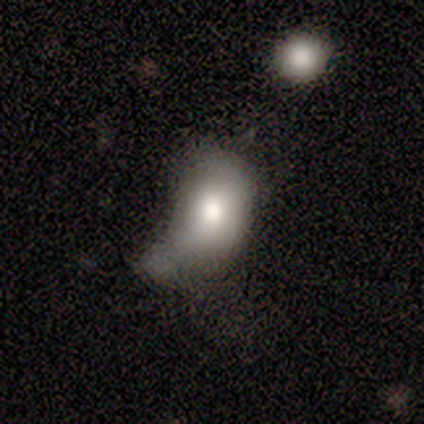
smooth-or-featured: smooth: 86% | featured or disk: 14% | star or artifact: 0%
  how-rounded: in between: 58% | round: 33% | cigar-shaped: 8%
  merging: minor disturbance: 64% | major disturbance: 21% | none: 7% | merger: 7%